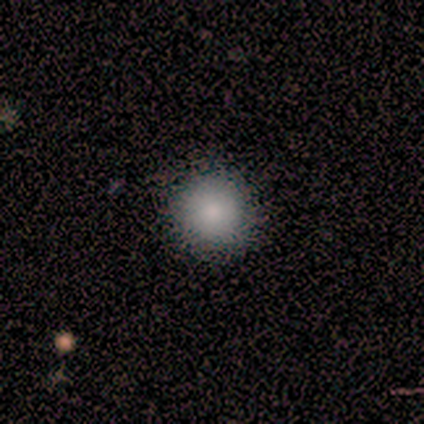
smooth-or-featured: smooth: 100% | featured or disk: 0% | star or artifact: 0%
  how-rounded: round: 100% | in between: 0% | cigar-shaped: 0%
  merging: none: 75% | minor disturbance: 25% | major disturbance: 0% | merger: 0%